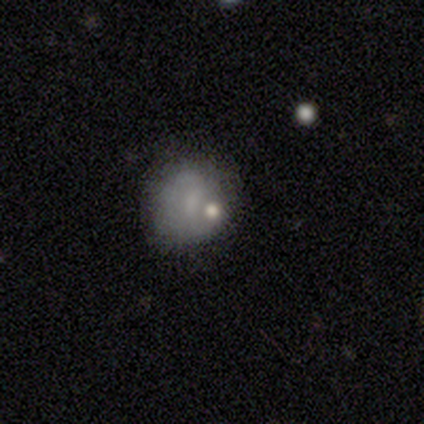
This appears to be a smooth galaxy with no disk features (45%) that is round (94%). Merging: none (46%).